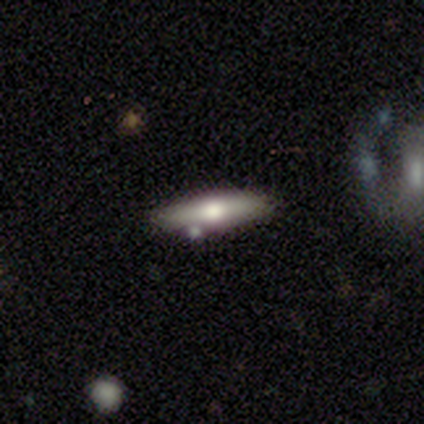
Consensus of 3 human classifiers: smooth 67%, featured or disk 33%, star or artifact 0%. Down the decision tree: how rounded — in between (50%, tied with cigar-shaped); merging — none (100%).